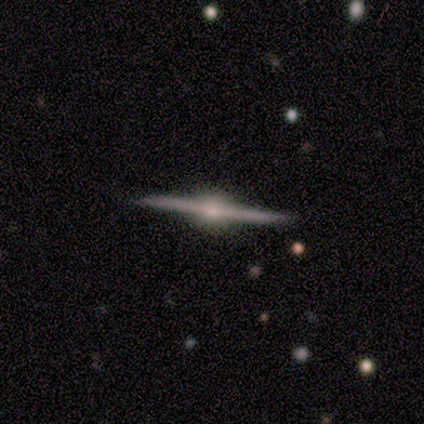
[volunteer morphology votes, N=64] smooth-or-featured: featured or disk: 94% | smooth: 3% | star or artifact: 3%
  disk-edge-on: yes: 97% | no: 3%
    edge-on-bulge: rounded: 91% | boxy: 5% | none: 3%
  merging: none: 90% | minor disturbance: 10% | major disturbance: 0% | merger: 0%